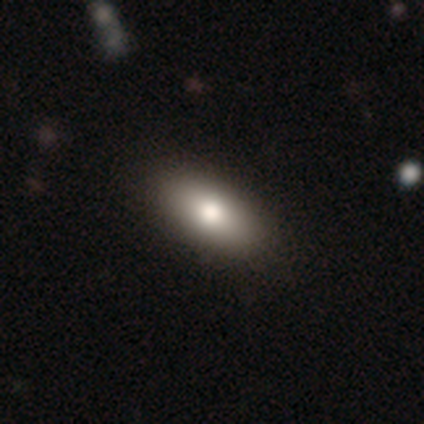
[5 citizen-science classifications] This appears to be a smooth galaxy with no disk features (80%) that is in between round and cigar-shaped (75%). Merging: none (100%).